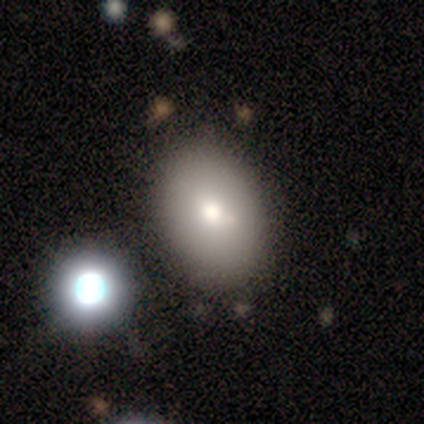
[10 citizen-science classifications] This appears to be a smooth galaxy with no disk features (90%) that is in between round and cigar-shaped (89%). Merging: none (90%).